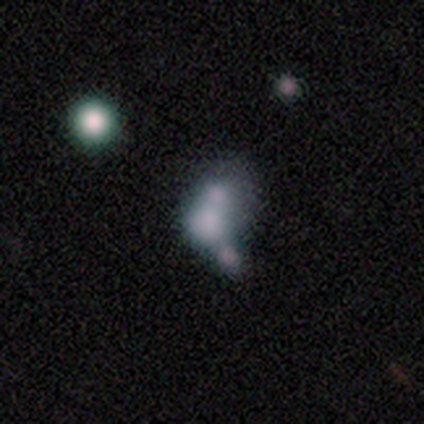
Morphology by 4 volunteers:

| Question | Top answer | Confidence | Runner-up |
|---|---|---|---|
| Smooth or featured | star or artifact | 50% | smooth (25%) |